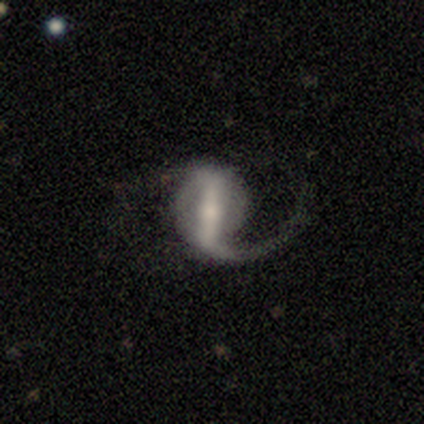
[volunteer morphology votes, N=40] Q: Smooth or featured?
A: featured or disk (92%); runner-up: smooth (8%)
Q: Edge-on disk?
A: no (97%); runner-up: yes (3%)
Q: Bar?
A: strong (81%); runner-up: weak (17%)
Q: Spiral arms?
A: yes (94%); runner-up: no (6%)
Q: Spiral winding?
A: loose (71%); runner-up: medium (24%)
Q: Spiral arm count?
A: 1 (53%); runner-up: 2 (44%)
Q: Bulge size?
A: small (58%); runner-up: moderate (22%)
Q: Merging?
A: none (48%); runner-up: major disturbance (42%)